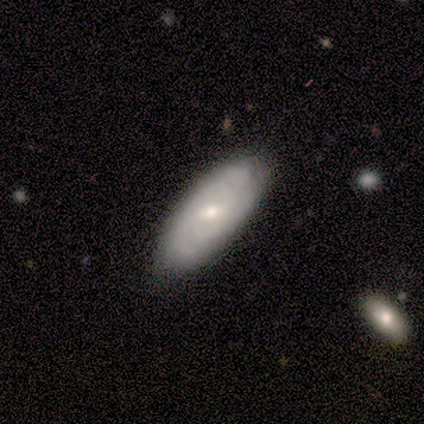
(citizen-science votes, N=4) Smooth or featured? 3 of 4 (75%) said featured or disk. Edge-on disk? 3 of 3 (100%) said no. Bar? 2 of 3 (67%) said weak. Spiral arms? 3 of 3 (100%) said yes. Spiral winding? 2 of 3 (67%) said tight. Spiral arm count? 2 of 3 (67%) said 2. Bulge size? 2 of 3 (67%) said moderate. Merging? 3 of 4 (75%) said none.